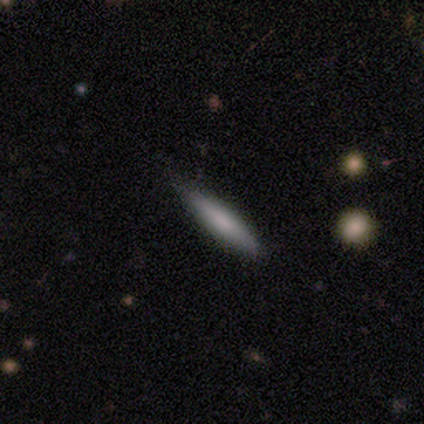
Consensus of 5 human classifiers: smooth 60%, featured or disk 40%, star or artifact 0%. Down the decision tree: how rounded — cigar-shaped (100%); merging — none (100%).